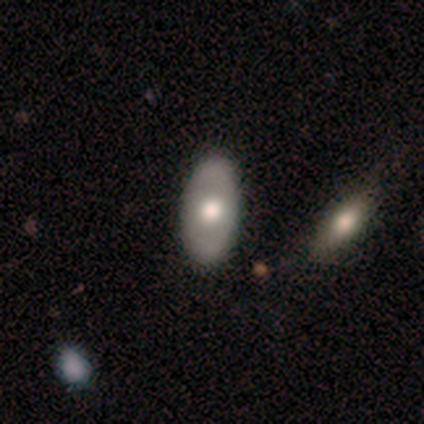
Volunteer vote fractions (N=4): This appears to be a smooth galaxy with no disk features (50%, tied with featured or disk) that is in between round and cigar-shaped (100%). Merging: none (75%).